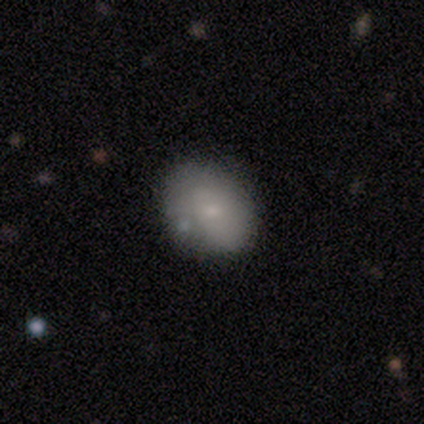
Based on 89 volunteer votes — Smooth or featured?
  - smooth: 70% *
  - featured or disk: 21%
  - star or artifact: 9%
How rounded?
  - in between: 60% *
  - round: 39%
  - cigar-shaped: 2%
Merging?
  - none: 67% *
  - minor disturbance: 20%
  - merger: 9%
  - major disturbance: 5%